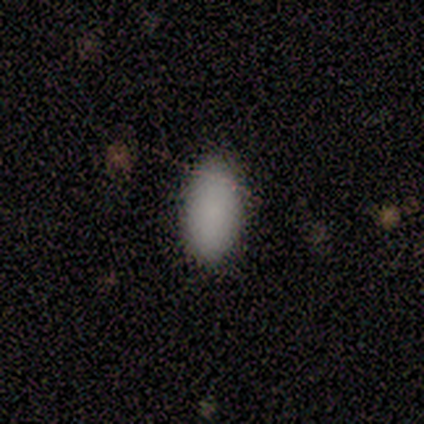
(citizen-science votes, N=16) smooth_or_featured: smooth (p=0.94) [alt: featured or disk p=0.06]
how_rounded: in between (p=0.87) [alt: cigar-shaped p=0.13]
merging: none (p=0.81) [alt: minor disturbance p=0.19]